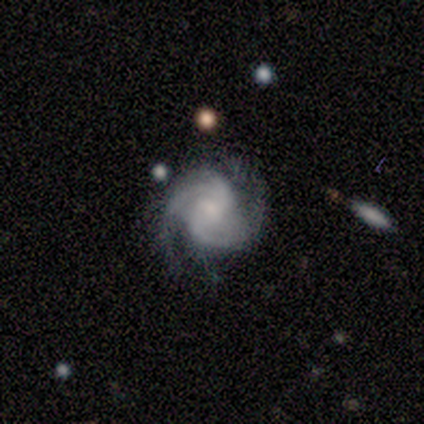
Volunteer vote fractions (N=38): This is clearly a featured or disk galaxy (89%). It is clearly not viewed edge-on (97%). Bar: possibly weak (48%). Spiral arm pattern: clearly yes (97%). Spiral arm count: likely 2 (78%). Spiral winding: possibly medium (53%). Central bulge: possibly small (52%). Merging: likely none (76%).